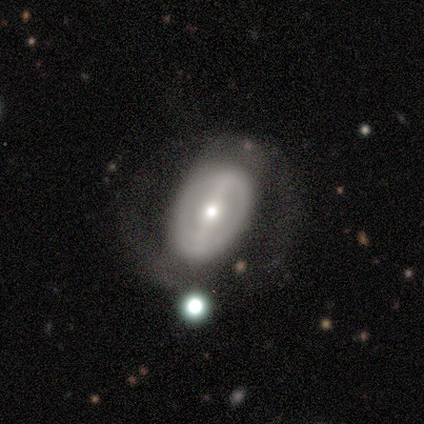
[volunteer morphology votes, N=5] Overall: featured or disk (80%). Edge-on disk: no (100%). Bar: strong (50%; weak 25%). Spiral arms: yes (50%, tied with no). Spiral arm count: 2 (50%, tied with can't tell). Spiral winding: tight (50%, tied with medium). Bulge size: small (50%; large 25%). Merging: none (60%; minor disturbance 20%).